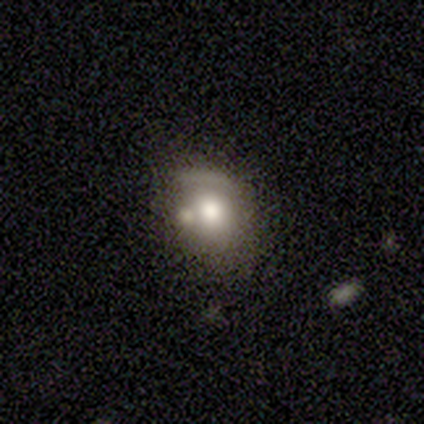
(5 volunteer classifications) Morphology: type=smooth (60%); roundness=in between (67%); merging=none (80%).